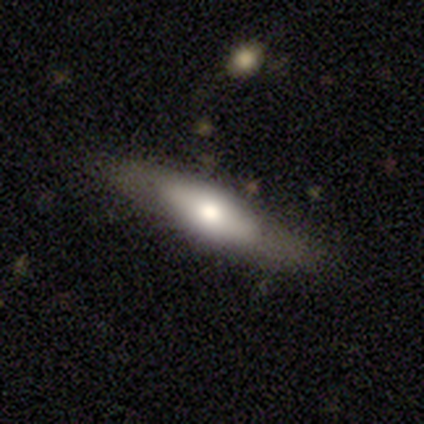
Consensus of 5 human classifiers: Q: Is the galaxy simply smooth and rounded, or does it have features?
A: featured or disk — 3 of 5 (60%).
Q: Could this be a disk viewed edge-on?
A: yes — 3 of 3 (100%).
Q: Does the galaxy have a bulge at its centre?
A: rounded — 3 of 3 (100%).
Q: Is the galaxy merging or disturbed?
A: none — 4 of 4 (100%).